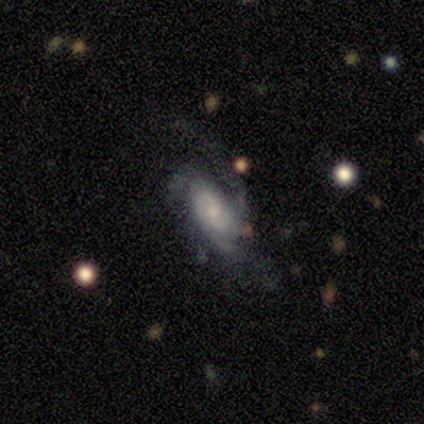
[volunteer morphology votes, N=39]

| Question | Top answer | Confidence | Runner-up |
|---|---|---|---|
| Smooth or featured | featured or disk | 85% | smooth (13%) |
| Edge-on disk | no | 94% | yes (6%) |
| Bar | no | 65% | weak (32%) |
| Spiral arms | yes | 84% | no (16%) |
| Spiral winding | medium | 50% | tight (42%) |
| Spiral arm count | can't tell | 35% | 3 (27%) |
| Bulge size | small | 65% | moderate (29%) |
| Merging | none | 55% | major disturbance (32%) |